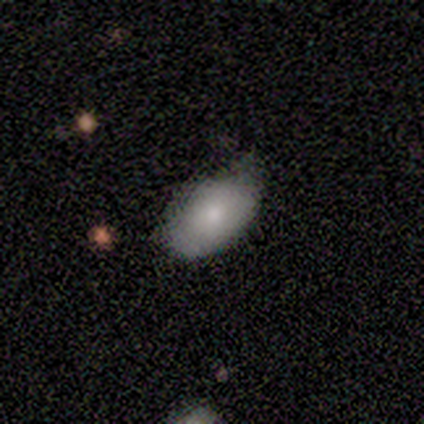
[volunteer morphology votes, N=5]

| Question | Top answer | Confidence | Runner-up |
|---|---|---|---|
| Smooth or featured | smooth | 80% | featured or disk (20%) |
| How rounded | in between | 100% | — |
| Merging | none | 80% | minor disturbance (20%) |